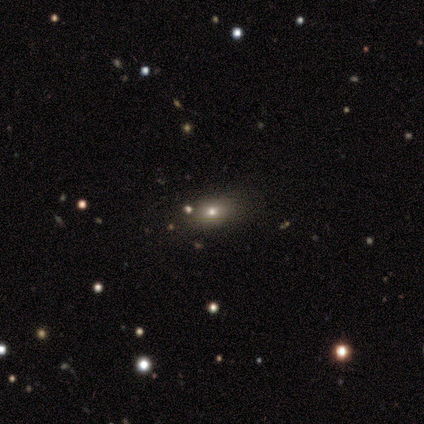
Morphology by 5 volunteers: This appears to be a smooth galaxy with no disk features (80%) that is in between round and cigar-shaped (100%). Merging: none (50%, tied with minor disturbance).